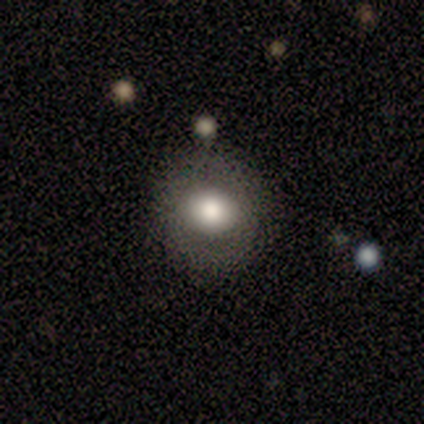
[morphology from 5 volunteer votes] smooth 80%, featured or disk 20%, star or artifact 0%. Down the decision tree: how rounded — round (75%); merging — none (100%).